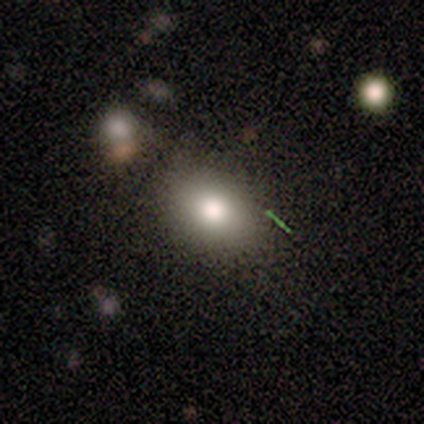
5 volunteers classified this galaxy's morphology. Overall: smooth (100%). How rounded: in between (80%). Merging: none (80%).